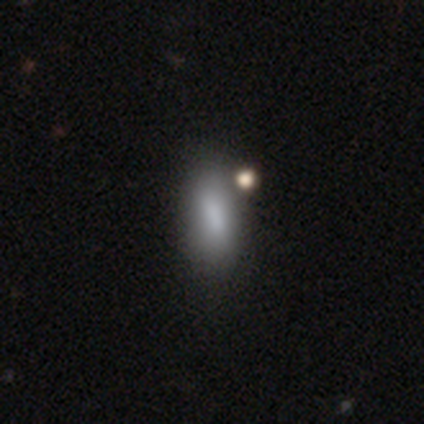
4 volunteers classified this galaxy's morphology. Overall: smooth (75%). How rounded: in between (67%; cigar-shaped 33%). Merging: none (75%).